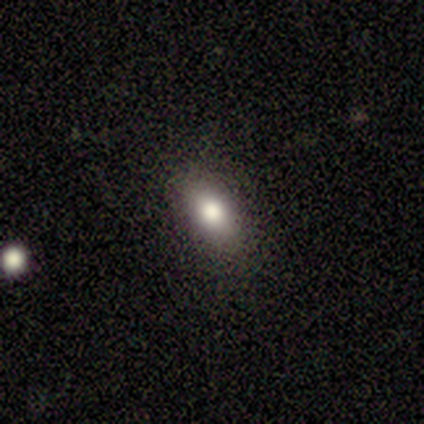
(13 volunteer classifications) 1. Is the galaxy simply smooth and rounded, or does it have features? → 85% smooth, 15% featured or disk, 0% star or artifact.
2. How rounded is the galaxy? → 91% in between, 9% round, 0% cigar-shaped.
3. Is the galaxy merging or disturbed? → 77% none, 15% minor disturbance, 8% major disturbance, 0% merger.